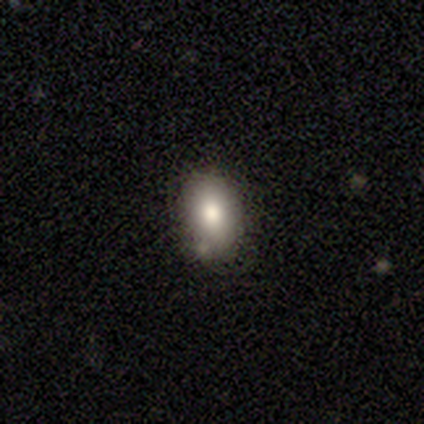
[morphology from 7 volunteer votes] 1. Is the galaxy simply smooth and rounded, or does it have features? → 43% smooth (tied), 43% star or artifact (tied), 14% featured or disk.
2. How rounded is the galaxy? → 67% in between, 33% round, 0% cigar-shaped.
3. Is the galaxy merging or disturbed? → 75% none, 25% minor disturbance, 0% major disturbance, 0% merger.